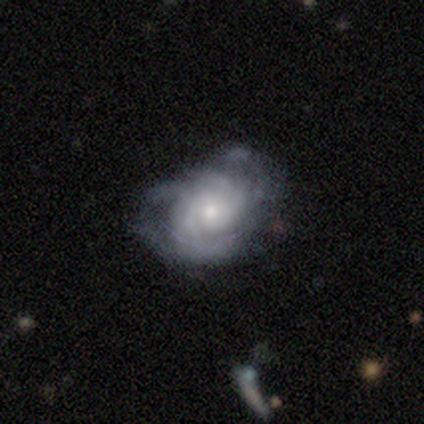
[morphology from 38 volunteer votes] Overall: featured or disk (79%). Edge-on disk: no (100%). Bar: no (77%). Spiral arms: yes (90%). Spiral arm count: can't tell (48%; 3 22%). Spiral winding: tight (56%; medium 30%). Bulge size: moderate (50%; small 43%). Merging: none (49%; major disturbance 26%).